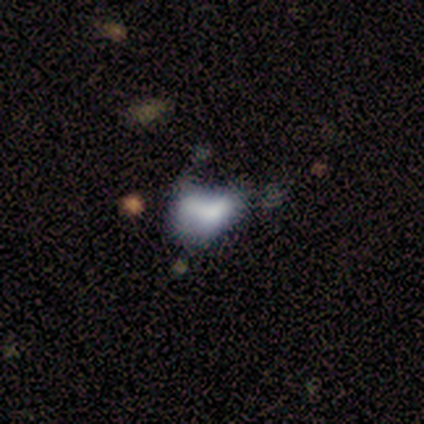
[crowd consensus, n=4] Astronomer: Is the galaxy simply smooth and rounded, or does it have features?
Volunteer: smooth — 75%.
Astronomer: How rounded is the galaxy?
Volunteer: in between — 100%.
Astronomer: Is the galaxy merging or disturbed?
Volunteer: none — 25%, tied with minor disturbance, major disturbance and merger at 25%.